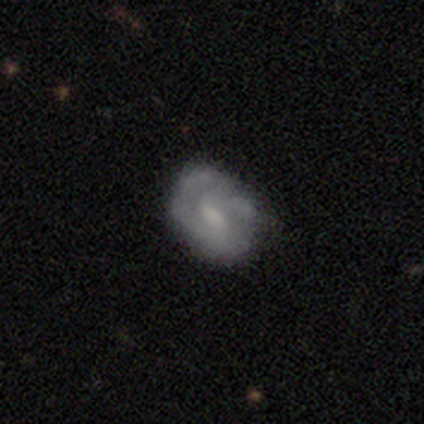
Smooth or featured: featured or disk — 60% (smooth — 40%)
Edge-on disk: no — 100%
Bar: no — 67% (strong — 33%)
Spiral arms: no — 100%
Bulge size: moderate — 33% (tied with small — 33%; none — 33%)
Merging: none — 80% (major disturbance — 20%)